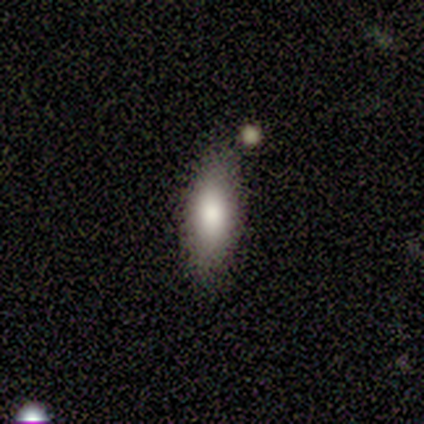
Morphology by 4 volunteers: This is clearly a smooth galaxy (100%). How rounded: likely in between (75%). Merging: likely none (75%).